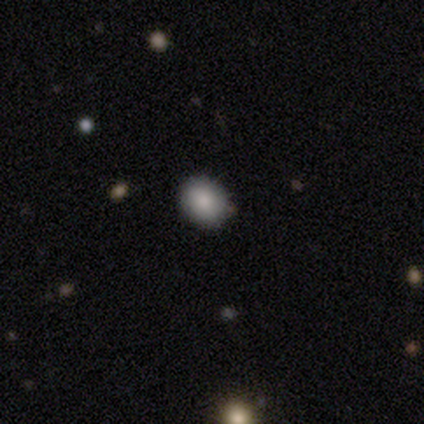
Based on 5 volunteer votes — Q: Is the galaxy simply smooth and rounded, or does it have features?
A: smooth — 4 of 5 (80%).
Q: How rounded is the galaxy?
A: round — 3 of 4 (75%).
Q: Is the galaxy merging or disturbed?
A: none — 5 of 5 (100%).